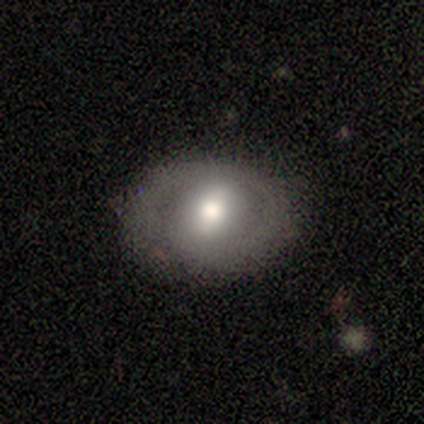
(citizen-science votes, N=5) Smooth or featured?
  - smooth: 40% * (tied)
  - featured or disk: 40% * (tied)
  - star or artifact: 20%
How rounded?
  - round: 50% * (tied)
  - in between: 50% * (tied)
  - cigar-shaped: 0%
Merging?
  - none: 75% *
  - minor disturbance: 25%
  - major disturbance: 0%
  - merger: 0%